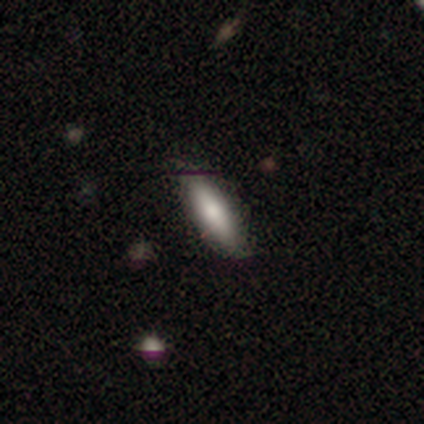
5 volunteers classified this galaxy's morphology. Smooth or featured? featured or disk (60%)
Edge-on disk? no (67%)
Bar? weak (50%, tied with no)
Spiral arms? no (100%)
Bulge size? moderate (50%, tied with small)
Merging? none (100%)